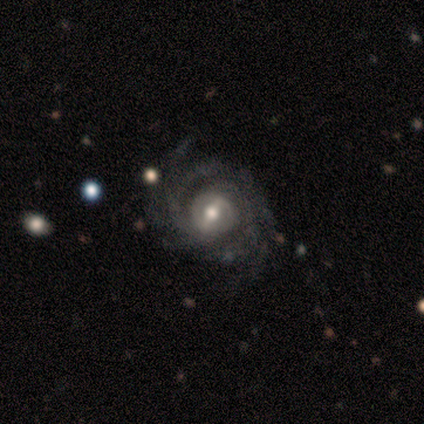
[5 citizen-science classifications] Smooth or featured?
  - featured or disk: 100% *
  - smooth: 0%
  - star or artifact: 0%
Edge-on disk?
  - no: 100% *
  - yes: 0%
Bar?
  - strong: 40% * (tied)
  - no: 40% * (tied)
  - weak: 20%
Spiral arms?
  - yes: 100% *
  - no: 0%
Spiral winding?
  - tight: 80% *
  - medium: 20%
  - loose: 0%
Spiral arm count?
  - 2: 40% * (tied)
  - 4: 40% * (tied)
  - can't tell: 20%
  - 1: 0%
  - 3: 0%
  - more than 4: 0%
Bulge size?
  - moderate: 80% *
  - none: 20%
  - dominant: 0%
  - large: 0%
  - small: 0%
Merging?
  - none: 100% *
  - minor disturbance: 0%
  - major disturbance: 0%
  - merger: 0%